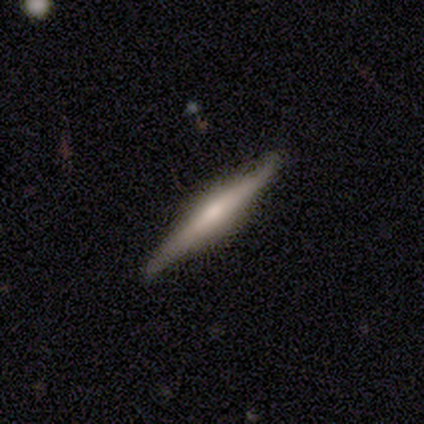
Smooth or featured?
  - featured or disk: 68% *
  - smooth: 29%
  - star or artifact: 3%
Edge-on disk?
  - yes: 100% *
  - no: 0%
Edge-on bulge?
  - rounded: 62% *
  - boxy: 23%
  - none: 15%
Merging?
  - none: 92% *
  - minor disturbance: 5%
  - major disturbance: 3%
  - merger: 0%